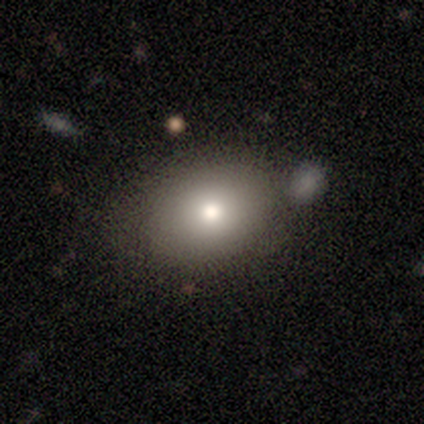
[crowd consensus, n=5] Smooth or featured?
  - smooth: 100% *
  - featured or disk: 0%
  - star or artifact: 0%
How rounded?
  - in between: 100% *
  - round: 0%
  - cigar-shaped: 0%
Merging?
  - none: 80% *
  - minor disturbance: 20%
  - major disturbance: 0%
  - merger: 0%